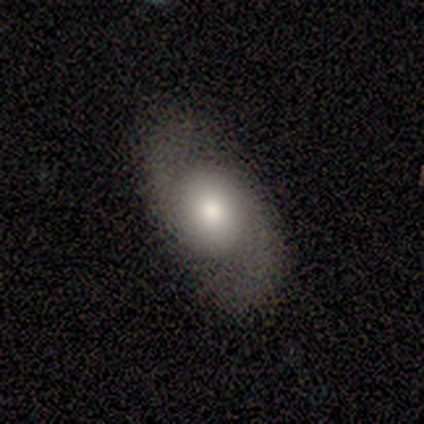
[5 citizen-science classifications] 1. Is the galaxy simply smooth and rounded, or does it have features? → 60% smooth, 40% featured or disk, 0% star or artifact.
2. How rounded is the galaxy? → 67% in between, 33% round, 0% cigar-shaped.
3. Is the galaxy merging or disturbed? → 80% none, 20% major disturbance, 0% minor disturbance, 0% merger.